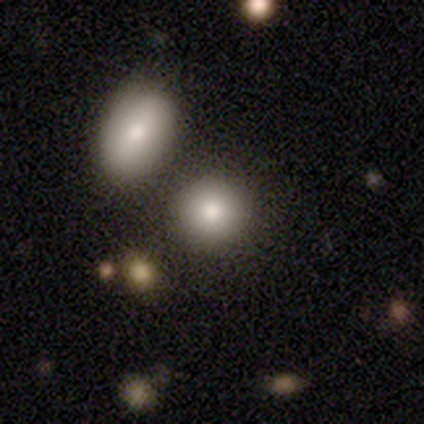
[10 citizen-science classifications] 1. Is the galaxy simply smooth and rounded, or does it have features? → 90% smooth, 10% featured or disk, 0% star or artifact.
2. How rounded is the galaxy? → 78% round, 22% in between, 0% cigar-shaped.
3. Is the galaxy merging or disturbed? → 70% none, 20% minor disturbance, 10% merger, 0% major disturbance.